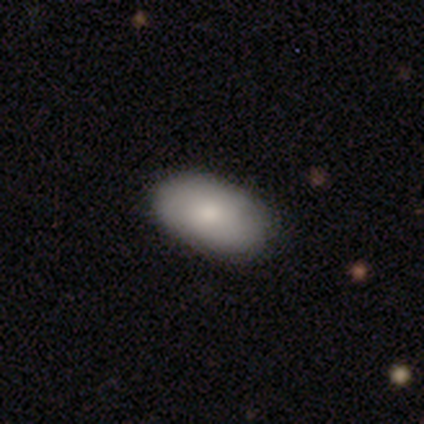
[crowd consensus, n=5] Volunteers were most divided on "smooth or featured": smooth: 80%, featured or disk: 20%, star or artifact: 0%. More confident: how rounded — in between (100%); merging — none (80%).